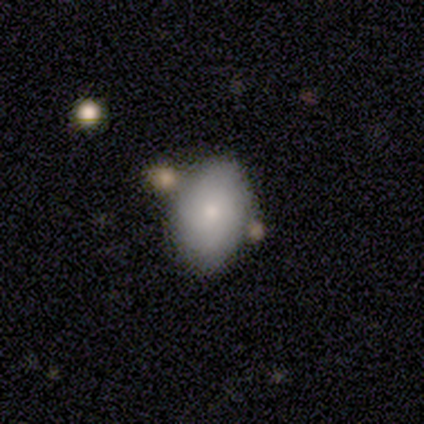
smooth 75%, featured or disk 25%, star or artifact 0%. Down the decision tree: how rounded — in between (100%); merging — none (50%).